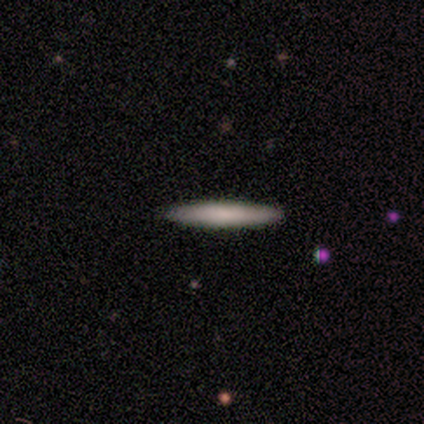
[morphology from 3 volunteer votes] Consensus on every question: smooth or featured — smooth (100%); how rounded — cigar-shaped (100%); merging — none (100%).